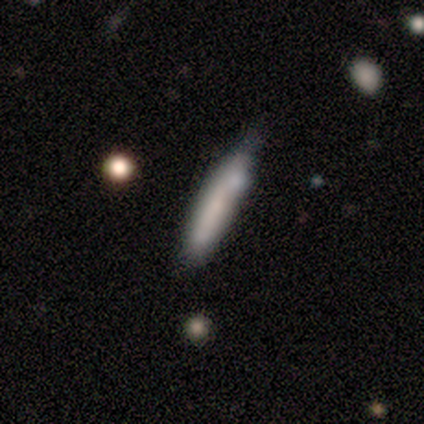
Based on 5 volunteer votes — Volunteers were most divided on "merging" (2-way tie): none: 40%, minor disturbance: 40%, merger: 20%, major disturbance: 0%. More confident: how rounded — cigar-shaped (100%); smooth or featured — smooth (60%).